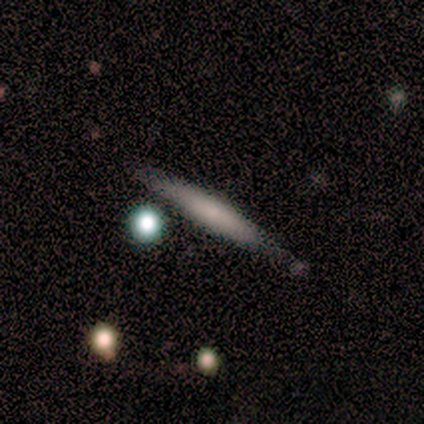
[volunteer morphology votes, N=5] Smooth or featured? smooth (60%)
How rounded? cigar-shaped (100%)
Merging? none (80%)